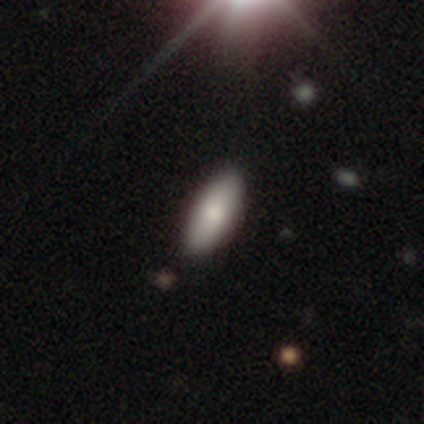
A smooth galaxy with no disk features (75%) that is in between round and cigar-shaped (83%). Merging: none (91%).